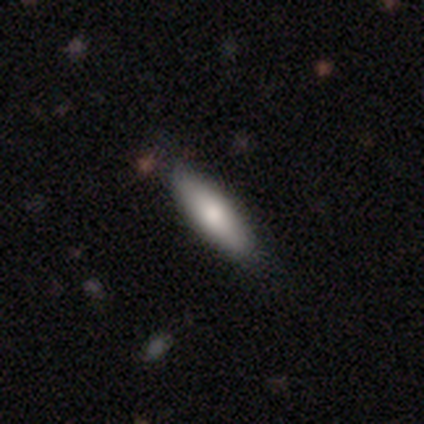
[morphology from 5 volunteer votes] A smooth galaxy with no disk features (80%) that is in between round and cigar-shaped (100%). Merging: none (80%).